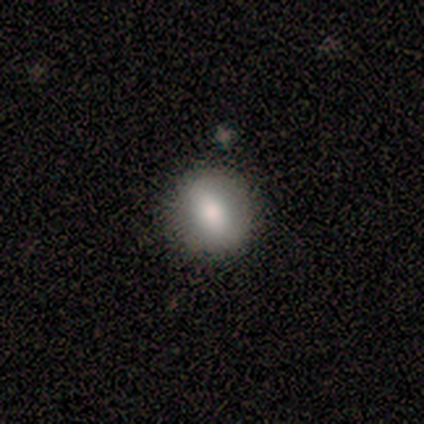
smooth 67%, featured or disk 33%, star or artifact 0%. Down the decision tree: how rounded — round (75%); merging — none (67%).